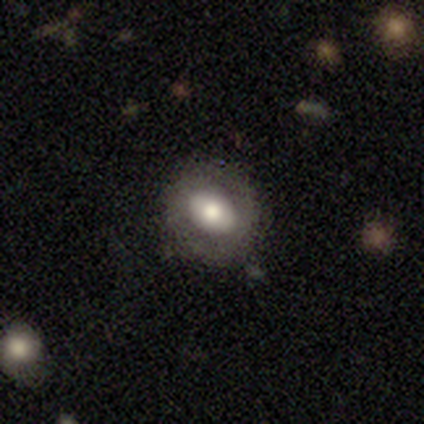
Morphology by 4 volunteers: type=featured or disk (75%); edge-on=no (100%); bar=strong (33%, tied with weak and no); spiral arms=no (100%); bulge=large (67%); merging=none (75%).